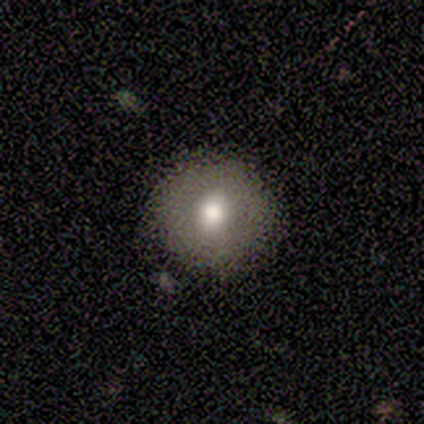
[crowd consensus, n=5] Q: Smooth or featured?
A: smooth (80%); runner-up: star or artifact (20%)
Q: How rounded?
A: round (75%); runner-up: in between (25%)
Q: Merging?
A: none (75%); runner-up: minor disturbance (25%)